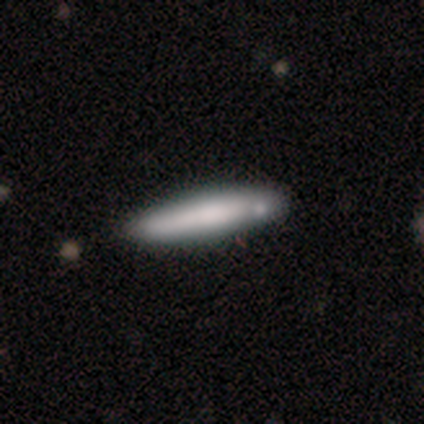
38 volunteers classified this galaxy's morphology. type=smooth (74%); roundness=cigar-shaped (89%); merging=none (31%).